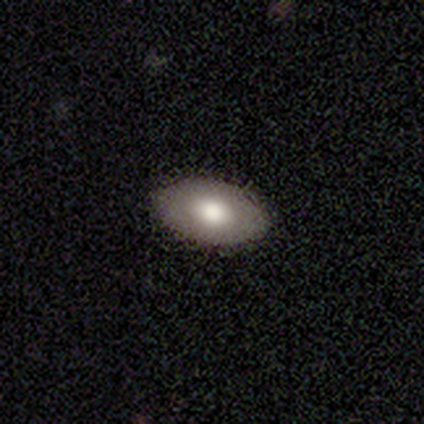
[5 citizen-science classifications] Morphology: type=smooth (60%); roundness=in between (67%); merging=none (100%).